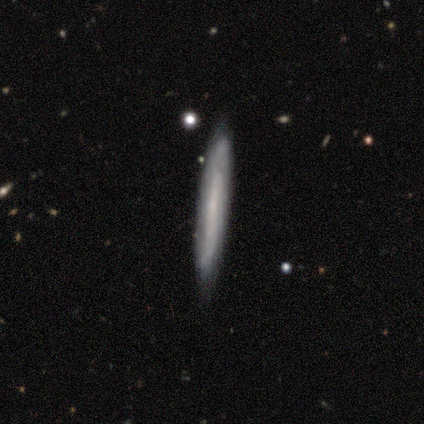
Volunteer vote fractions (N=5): Q: Smooth or featured?
A: featured or disk (60%); runner-up: smooth (40%)
Q: Edge-on disk?
A: yes (100%)
Q: Edge-on bulge?
A: none (67%); runner-up: rounded (33%)
Q: Merging?
A: none (80%); runner-up: major disturbance (20%)